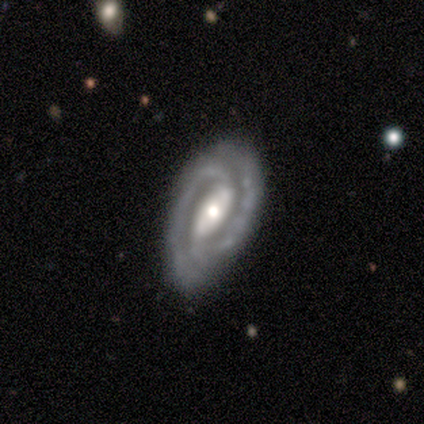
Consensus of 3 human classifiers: Smooth or featured? 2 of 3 (67%) said featured or disk. Edge-on disk? 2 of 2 (100%) said no. Bar? 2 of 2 (100%) said strong. Spiral arms? 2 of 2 (100%) said yes. Spiral winding? 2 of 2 (100%) said medium. Spiral arm count? 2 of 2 (100%) said 2. Bulge size? 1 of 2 (50%, tied with small) said moderate. Merging? 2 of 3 (67%) said none.